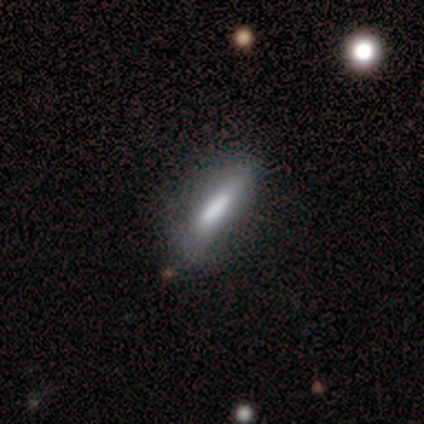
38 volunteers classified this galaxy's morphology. smooth_or_featured: smooth (p=0.68) [alt: featured or disk p=0.26]
how_rounded: cigar-shaped (p=0.73) [alt: in between p=0.27]
merging: none (p=0.72) [alt: minor disturbance p=0.22]